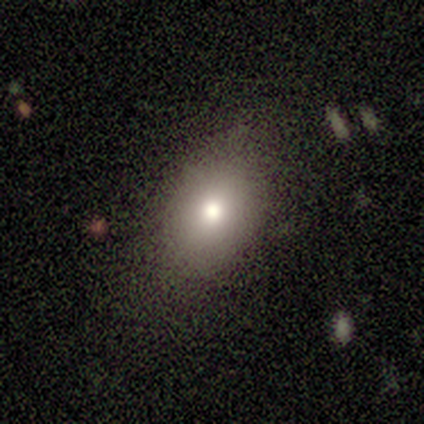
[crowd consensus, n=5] Smooth or featured?
  - smooth: 80% *
  - featured or disk: 20%
  - star or artifact: 0%
How rounded?
  - in between: 75% *
  - round: 25%
  - cigar-shaped: 0%
Merging?
  - none: 100% *
  - minor disturbance: 0%
  - major disturbance: 0%
  - merger: 0%